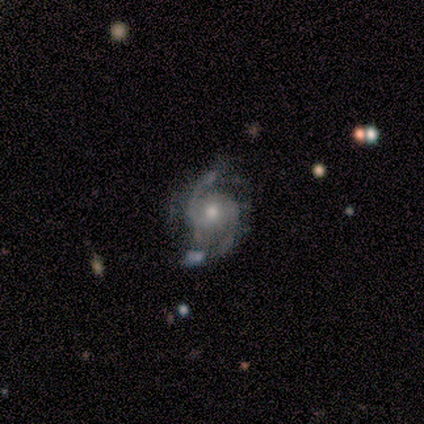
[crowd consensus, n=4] Smooth or featured? featured or disk (100%)
Edge-on disk? no (100%)
Bar? weak (75%)
Spiral arms? yes (100%)
Spiral winding? tight (50%)
Spiral arm count? 2 (100%)
Bulge size? moderate (75%)
Merging? none (100%)